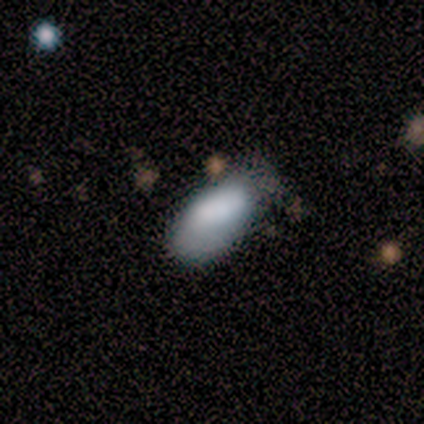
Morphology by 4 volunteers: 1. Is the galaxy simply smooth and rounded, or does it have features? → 75% smooth, 25% featured or disk, 0% star or artifact.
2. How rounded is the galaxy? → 100% in between, 0% round, 0% cigar-shaped.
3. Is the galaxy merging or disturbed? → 50% none (tied), 50% minor disturbance (tied), 0% major disturbance, 0% merger.